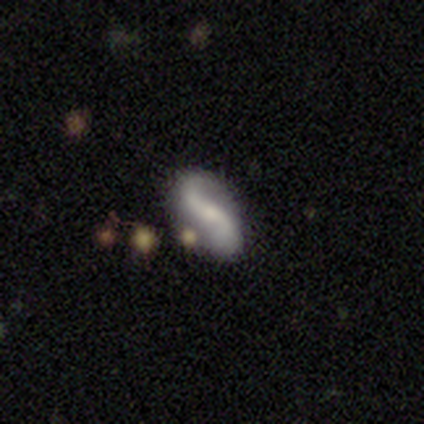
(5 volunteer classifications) Volunteers were most divided on "bar" (2-way tie): weak: 50%, no: 50%, strong: 0%. More confident: edge-on disk — no (100%); spiral arms — yes (100%); spiral arm count — 2 (100%); bulge size — small (100%); merging — none (100%); smooth or featured — featured or disk (80%); spiral winding — loose (75%).